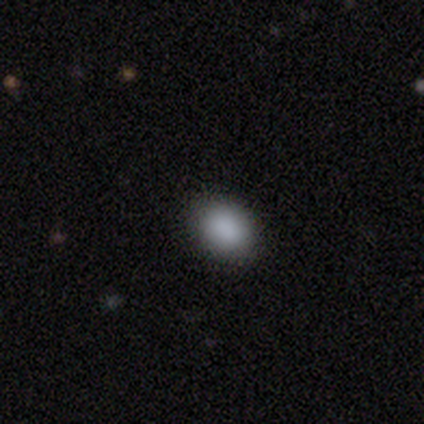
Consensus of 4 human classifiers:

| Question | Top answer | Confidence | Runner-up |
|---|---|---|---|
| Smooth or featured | smooth | 100% | — |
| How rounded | round | 50% | tied: in between (50%) |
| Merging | none | 50% | minor disturbance (25%) |